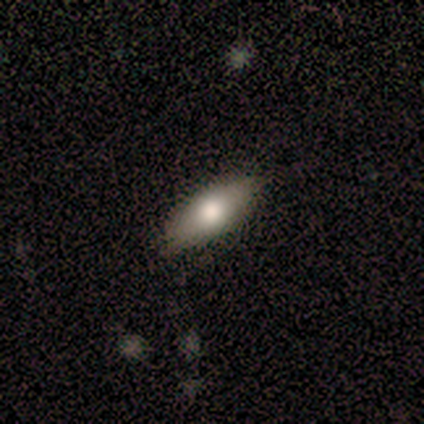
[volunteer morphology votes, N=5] type=smooth (80%); roundness=in between (100%); merging=none (100%).